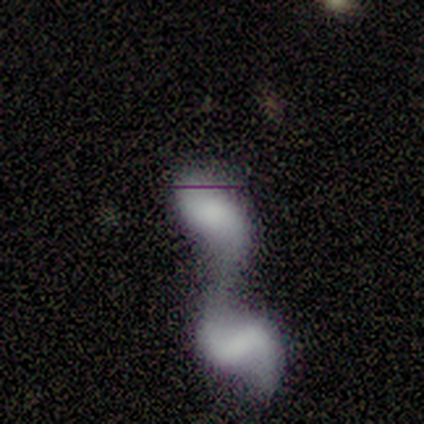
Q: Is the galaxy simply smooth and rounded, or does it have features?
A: featured or disk — 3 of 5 (60%).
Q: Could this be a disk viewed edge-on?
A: no — 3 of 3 (100%).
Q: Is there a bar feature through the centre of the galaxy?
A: no — 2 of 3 (67%).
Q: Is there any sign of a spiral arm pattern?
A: no — 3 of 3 (100%).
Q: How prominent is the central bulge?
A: none — 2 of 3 (67%).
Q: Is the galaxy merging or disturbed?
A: merger — 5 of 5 (100%).